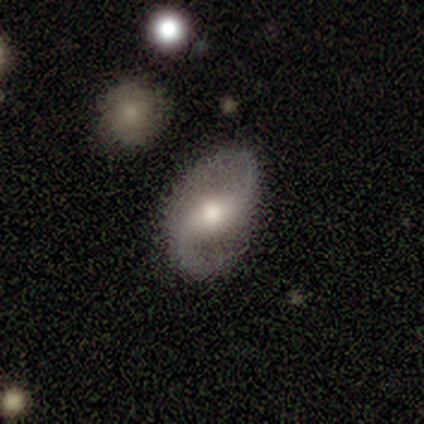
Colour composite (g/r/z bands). It shows a featured or disk galaxy (77%) with a weak bar (47%), 2 (94%) loose (53%) spiral arms (97%) and a moderate central bulge (80%). Merging: none (77%).